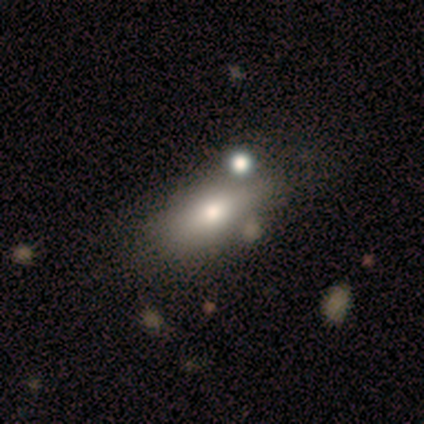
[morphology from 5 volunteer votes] A smooth galaxy with no disk features (80%) that is in between round and cigar-shaped (100%).

Vote fractions:
- Smooth or featured? smooth: 80% / star or artifact: 20% / featured or disk: 0%
- How rounded? in between: 100% / round: 0% / cigar-shaped: 0%
- Merging? none: 75% / merger: 25% / minor disturbance: 0% / major disturbance: 0%